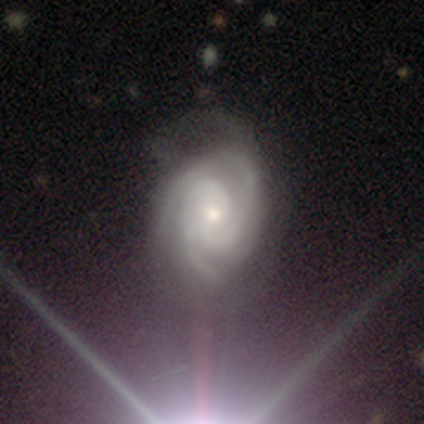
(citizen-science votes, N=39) Smooth or featured: featured or disk — 85% (smooth — 8%)
Edge-on disk: no — 97% (yes — 3%)
Bar: no — 62% (weak — 25%)
Spiral arms: yes — 100%
Spiral winding: tight — 69% (medium — 31%)
Spiral arm count: 3 — 59% (2 — 22%)
Bulge size: moderate — 47% (tied with small — 47%)
Merging: none — 50% (minor disturbance — 25%)